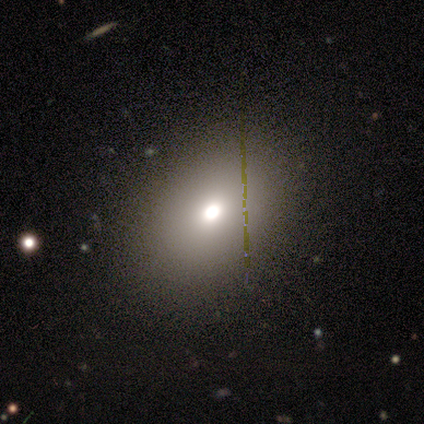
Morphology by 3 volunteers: A featured or disk galaxy (67%) with no bar (100%), no spiral arms (100%) and a large central bulge (50%, tied with small).

Vote fractions:
- Smooth or featured? featured or disk: 67% / star or artifact: 33% / smooth: 0%
- Edge-on disk? no: 100% / yes: 0%
- Bar? no: 100% / strong: 0% / weak: 0%
- Spiral arms? no: 100% / yes: 0%
- Bulge size? large: 50% (tied) / small: 50% (tied) / dominant: 0% / moderate: 0% / none: 0%
- Merging? none: 100% / minor disturbance: 0% / major disturbance: 0% / merger: 0%